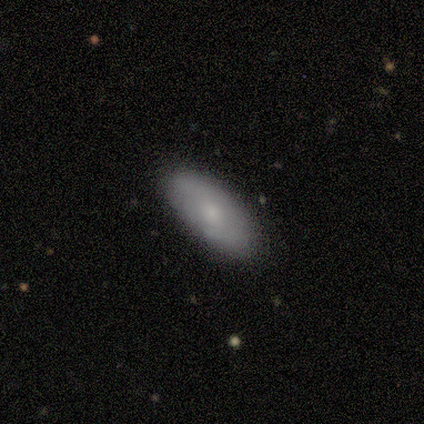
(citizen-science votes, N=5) smooth-or-featured: smooth: 80% | featured or disk: 20% | star or artifact: 0%
  how-rounded: in between: 100% | round: 0% | cigar-shaped: 0%
  merging: none: 80% | merger: 20% | minor disturbance: 0% | major disturbance: 0%